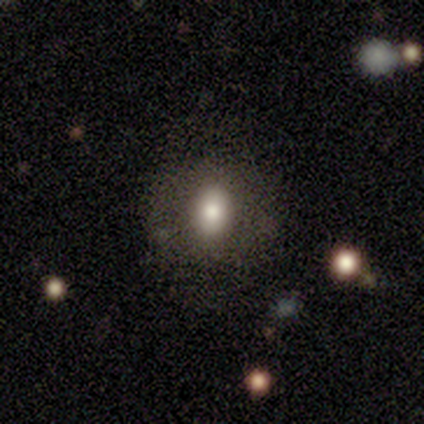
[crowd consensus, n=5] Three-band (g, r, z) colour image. It shows a smooth galaxy with no disk features (80%) that is round (50%, tied with in between). Merging: none (75%).